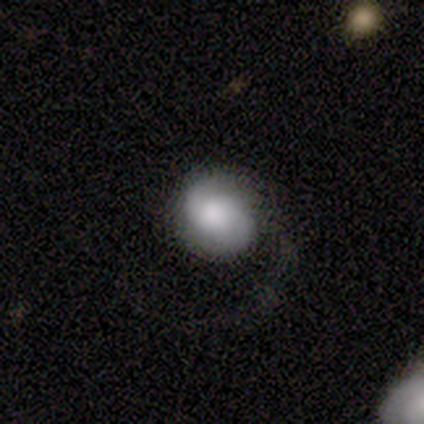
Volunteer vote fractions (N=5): Overall: smooth (40%, tied with featured or disk). How rounded: round (50%, tied with in between). Merging: major disturbance (50%; none 25%).